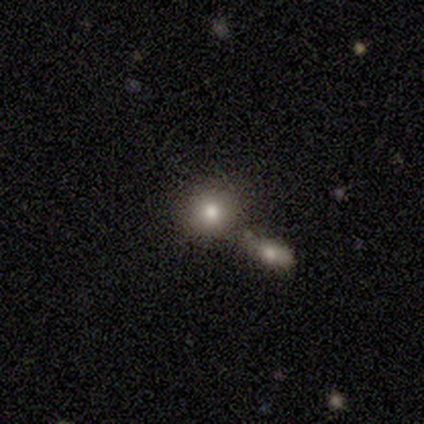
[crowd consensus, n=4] Morphology: type=smooth (75%); roundness=round (100%); merging=none (100%).